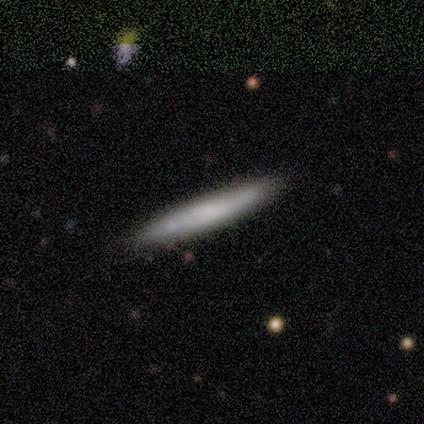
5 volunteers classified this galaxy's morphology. smooth-or-featured: smooth: 60% | featured or disk: 40% | star or artifact: 0%
  how-rounded: cigar-shaped: 100% | round: 0% | in between: 0%
  merging: none: 100% | minor disturbance: 0% | major disturbance: 0% | merger: 0%